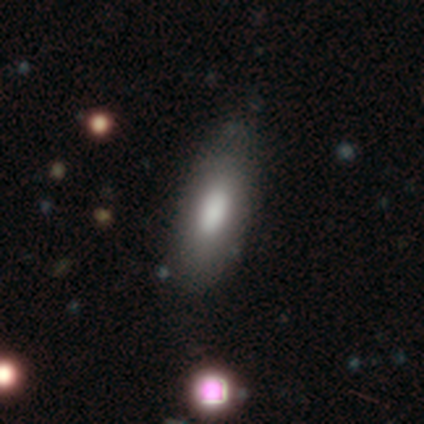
This is clearly a smooth galaxy (100%). How rounded: likely in between (75%). Merging: likely none (75%).